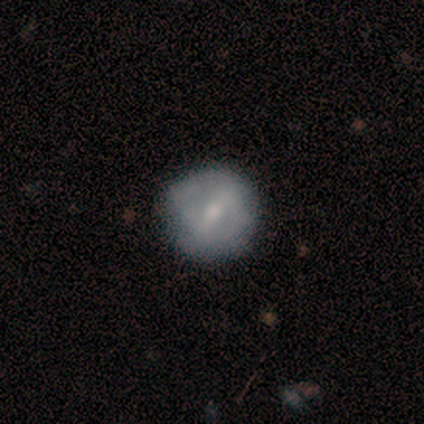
smooth_or_featured: smooth (p=0.67) [alt: featured or disk p=0.33]
how_rounded: round (p=1.00)
merging: none (p=0.67) [alt: merger p=0.33]